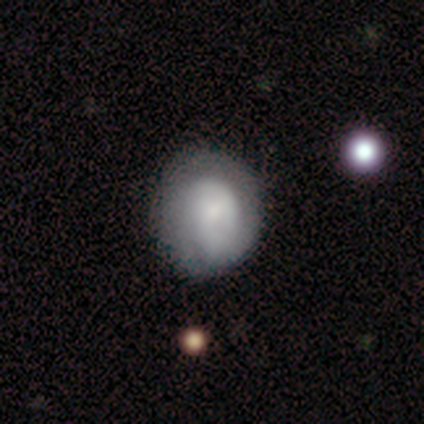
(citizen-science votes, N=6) smooth-or-featured: smooth: 83% | featured or disk: 17% | star or artifact: 0%
  how-rounded: round: 80% | in between: 20% | cigar-shaped: 0%
  merging: none: 67% | minor disturbance: 17% | major disturbance: 17% | merger: 0%